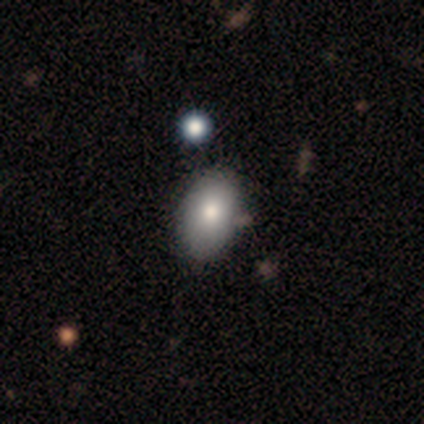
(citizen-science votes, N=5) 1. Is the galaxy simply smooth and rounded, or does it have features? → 60% smooth, 40% featured or disk, 0% star or artifact.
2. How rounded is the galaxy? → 67% in between, 33% round, 0% cigar-shaped.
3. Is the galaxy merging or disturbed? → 80% none, 20% minor disturbance, 0% major disturbance, 0% merger.